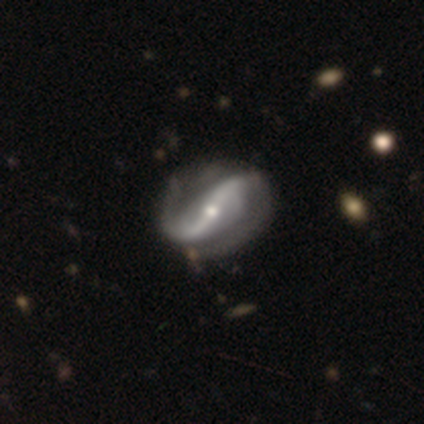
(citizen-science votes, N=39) smooth-or-featured: featured or disk: 95% | smooth: 5% | star or artifact: 0%
  disk-edge-on: no: 97% | yes: 3%
    bar: strong: 61% | weak: 19% | no: 19%
    has-spiral-arms: yes: 97% | no: 3%
      spiral-winding: loose: 60% | tight: 20% | medium: 20%
      spiral-arm-count: 2: 97% | can't tell: 3% | 1: 0% | 3: 0% | 4: 0% | more than 4: 0%
    bulge-size: small: 53% | moderate: 44% | none: 3% | dominant: 0% | large: 0%
  merging: none: 46% | minor disturbance: 15% | merger: 3% | major disturbance: 0%